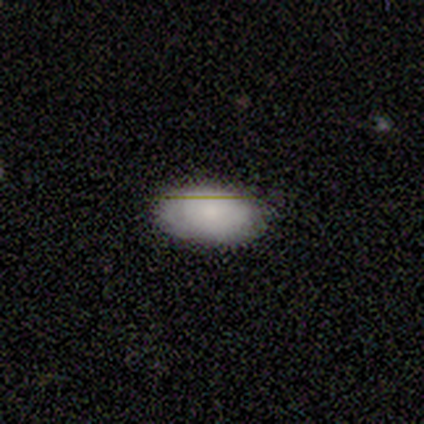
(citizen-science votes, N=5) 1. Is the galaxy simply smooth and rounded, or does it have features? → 100% smooth, 0% featured or disk, 0% star or artifact.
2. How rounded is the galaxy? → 100% in between, 0% round, 0% cigar-shaped.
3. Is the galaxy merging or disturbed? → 100% none, 0% minor disturbance, 0% major disturbance, 0% merger.